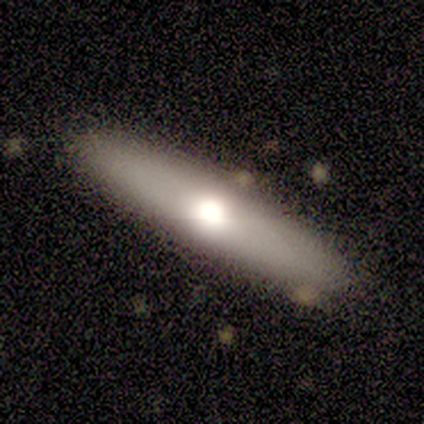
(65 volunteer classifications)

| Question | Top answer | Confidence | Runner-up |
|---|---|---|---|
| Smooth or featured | smooth | 74% | featured or disk (22%) |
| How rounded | cigar-shaped | 83% | in between (17%) |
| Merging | none | 63% | minor disturbance (3%) |